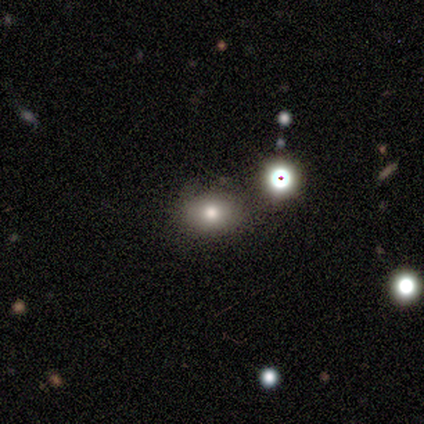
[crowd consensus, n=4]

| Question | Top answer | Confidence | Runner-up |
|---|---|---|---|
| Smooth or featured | star or artifact | 50% | smooth (25%) |